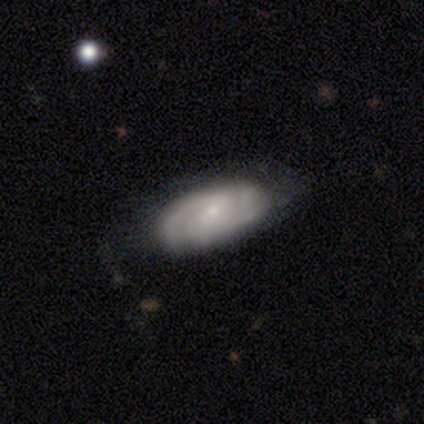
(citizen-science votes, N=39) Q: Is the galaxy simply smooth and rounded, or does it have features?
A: featured or disk — 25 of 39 (64%).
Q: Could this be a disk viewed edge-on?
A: no — 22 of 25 (88%).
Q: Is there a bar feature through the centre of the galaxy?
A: weak — 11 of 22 (50%).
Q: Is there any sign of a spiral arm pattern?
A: yes — 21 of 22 (95%).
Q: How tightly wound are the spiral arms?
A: tight — 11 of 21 (52%).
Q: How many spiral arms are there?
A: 2 — 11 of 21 (52%).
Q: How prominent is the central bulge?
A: small — 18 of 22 (82%).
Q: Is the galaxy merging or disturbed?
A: none — 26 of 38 (68%).